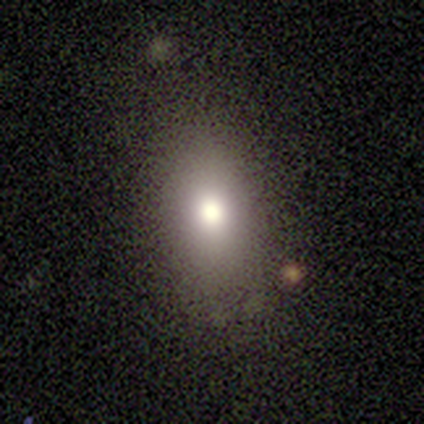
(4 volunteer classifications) smooth_or_featured: smooth (p=0.75) [alt: featured or disk p=0.25]
how_rounded: in between (p=1.00)
merging: none (p=0.50) [tied with: minor disturbance p=0.50]